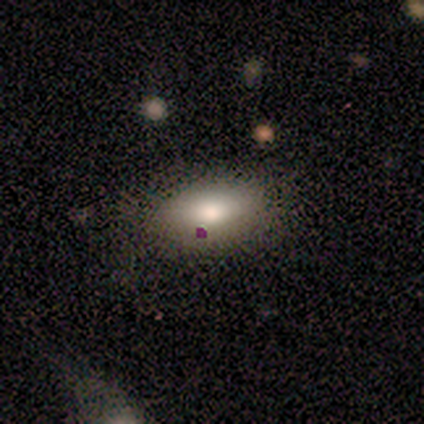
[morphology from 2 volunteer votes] smooth_or_featured: smooth (p=1.00)
how_rounded: in between (p=1.00)
merging: none (p=1.00)